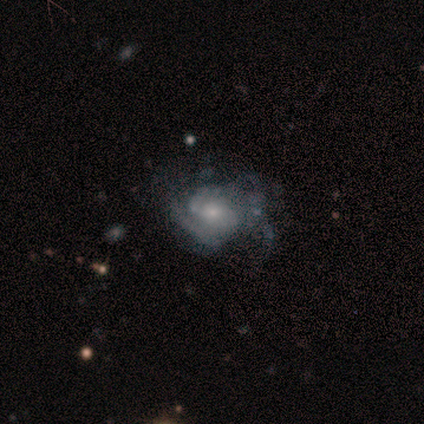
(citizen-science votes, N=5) Smooth or featured? 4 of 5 (80%) said featured or disk. Edge-on disk? 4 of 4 (100%) said no. Bar? 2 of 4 (50%) said no. Spiral arms? 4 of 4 (100%) said yes. Spiral winding? 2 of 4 (50%, tied with medium) said tight. Spiral arm count? 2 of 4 (50%) said 2. Bulge size? 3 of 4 (75%) said moderate. Merging? 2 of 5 (40%, tied with minor disturbance) said none.